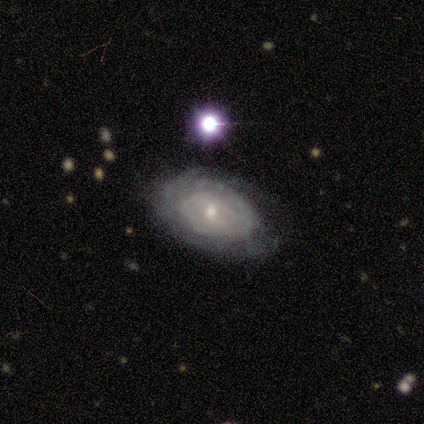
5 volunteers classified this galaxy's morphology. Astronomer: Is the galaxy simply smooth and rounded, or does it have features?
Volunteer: featured or disk — 80%.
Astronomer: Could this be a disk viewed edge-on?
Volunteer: no — 100%.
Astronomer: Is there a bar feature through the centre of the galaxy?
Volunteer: no — 100%.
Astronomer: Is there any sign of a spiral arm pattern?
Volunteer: yes — 50%, tied with no at 50%.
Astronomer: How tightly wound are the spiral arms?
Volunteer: tight — 50%, tied with medium at 50%.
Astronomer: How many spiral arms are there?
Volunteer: can't tell — 100%.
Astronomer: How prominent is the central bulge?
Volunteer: small — 100%.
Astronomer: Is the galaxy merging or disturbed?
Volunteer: none — 80%.